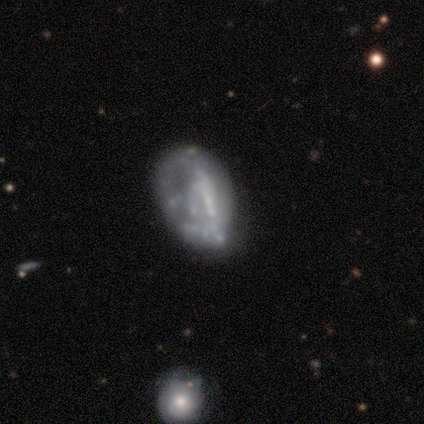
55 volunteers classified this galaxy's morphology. Smooth or featured? 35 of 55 (64%) said featured or disk. Edge-on disk? 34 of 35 (97%) said no. Bar? 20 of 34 (59%) said no. Spiral arms? 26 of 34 (76%) said no. Bulge size? 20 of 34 (59%) said none. Merging? 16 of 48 (33%) said none.